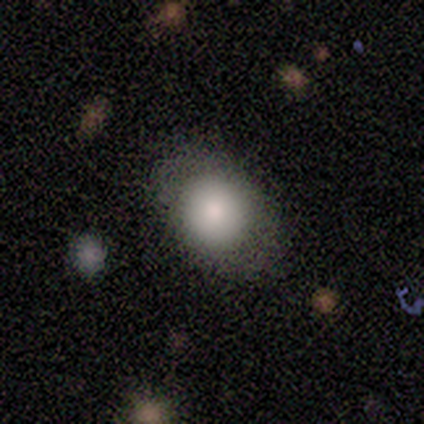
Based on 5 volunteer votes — This appears to be a smooth galaxy with no disk features (80%) that is round (50%, tied with in between). Merging: none (80%).